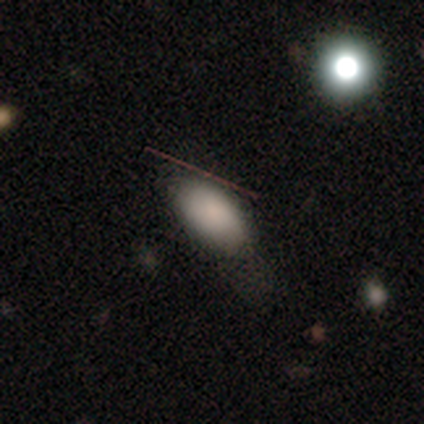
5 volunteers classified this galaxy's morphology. Volunteers were most divided on "smooth or featured": star or artifact: 60%, smooth: 40%, featured or disk: 0%.